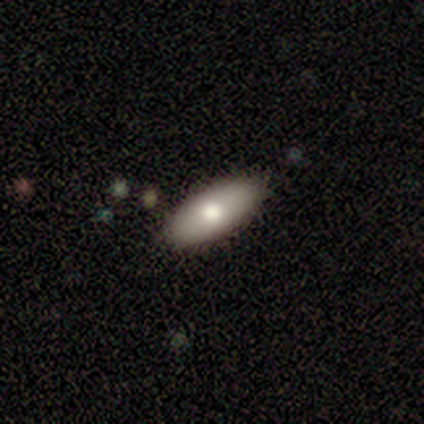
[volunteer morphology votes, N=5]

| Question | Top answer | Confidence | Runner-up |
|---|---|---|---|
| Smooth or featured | smooth | 80% | star or artifact (20%) |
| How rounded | in between | 75% | cigar-shaped (25%) |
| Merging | none | 100% | — |